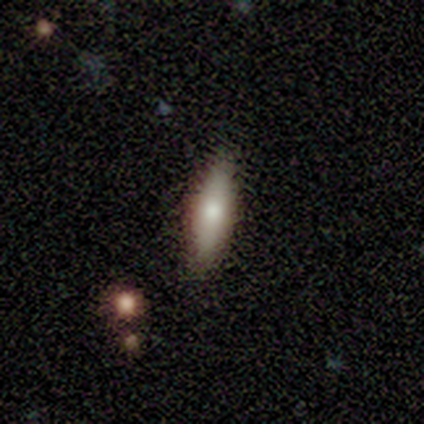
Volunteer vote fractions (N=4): Smooth or featured: smooth — 100%
How rounded: cigar-shaped — 75% (in between — 25%)
Merging: none — 100%